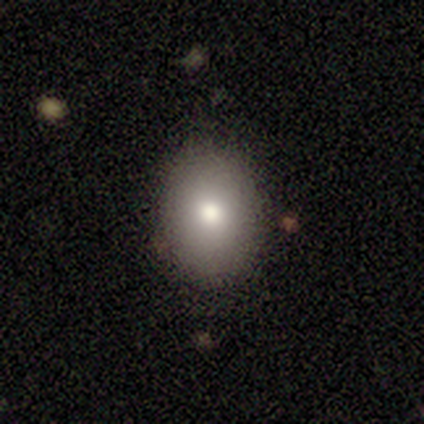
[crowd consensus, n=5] smooth 40% (tied), featured or disk 40% (tied), star or artifact 20%. Down the decision tree: how rounded — round (50%, tied with in between); merging — none (100%).